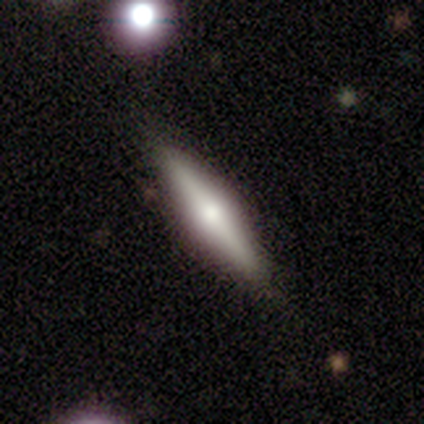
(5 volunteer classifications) Overall: featured or disk (80%). Edge-on disk: yes (100%). Edge-on bulge: rounded (100%). Merging: none (100%).